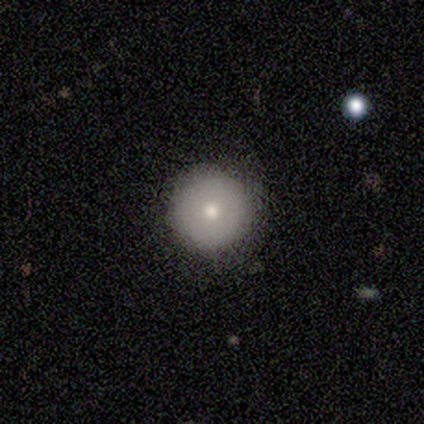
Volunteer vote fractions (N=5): This appears to be a smooth galaxy with no disk features (80%) that is round (100%). Merging: none (100%).